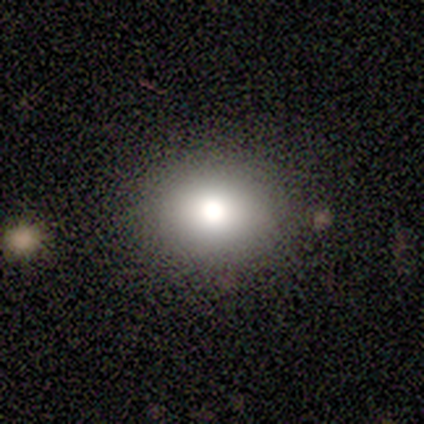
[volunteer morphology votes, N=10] Q: Smooth or featured?
A: smooth (90%); runner-up: featured or disk (10%)
Q: How rounded?
A: round (67%); runner-up: in between (33%)
Q: Merging?
A: none (90%); runner-up: major disturbance (10%)